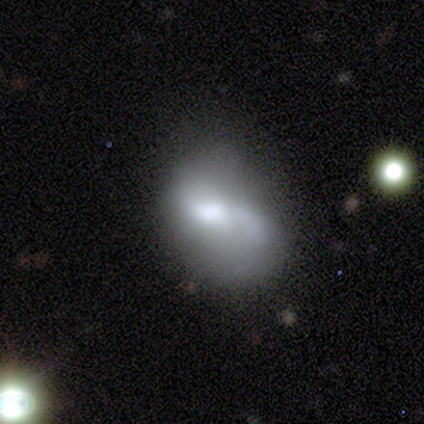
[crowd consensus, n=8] Q: Smooth or featured?
A: featured or disk (75%); runner-up: smooth (25%)
Q: Edge-on disk?
A: no (100%)
Q: Bar?
A: no (83%); runner-up: weak (17%)
Q: Spiral arms?
A: yes (50%); tied with: no (50%)
Q: Spiral winding?
A: loose (100%)
Q: Spiral arm count?
A: 1 (67%); runner-up: 2 (33%)
Q: Bulge size?
A: moderate (50%); runner-up: large (33%)
Q: Merging?
A: minor disturbance (50%); runner-up: none (25%)